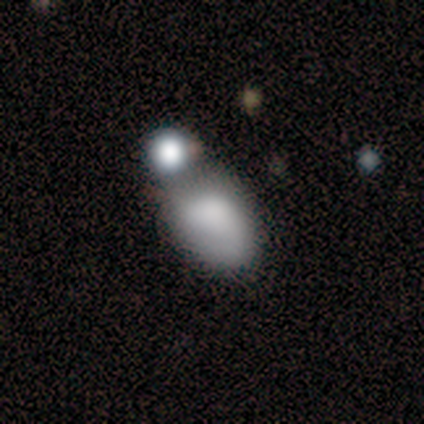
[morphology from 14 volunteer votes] Smooth or featured? 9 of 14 (64%) said smooth. How rounded? 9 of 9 (100%) said in between. Merging? 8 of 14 (57%) said merger.